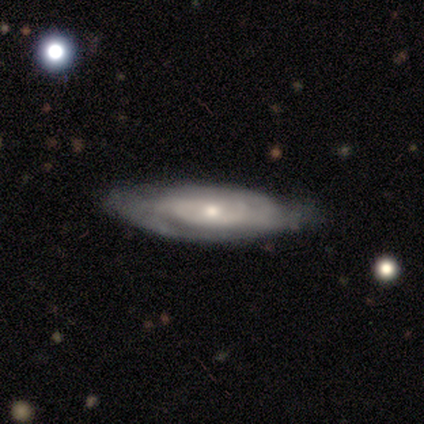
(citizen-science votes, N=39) Q: Smooth or featured?
A: featured or disk (77%); runner-up: smooth (21%)
Q: Edge-on disk?
A: no (77%); runner-up: yes (23%)
Q: Bar?
A: no (83%); runner-up: weak (13%)
Q: Spiral arms?
A: yes (91%); runner-up: no (9%)
Q: Spiral winding?
A: tight (67%); runner-up: medium (29%)
Q: Spiral arm count?
A: can't tell (62%); runner-up: 2 (19%)
Q: Bulge size?
A: small (48%); runner-up: moderate (43%)
Q: Merging?
A: none (63%); runner-up: minor disturbance (29%)